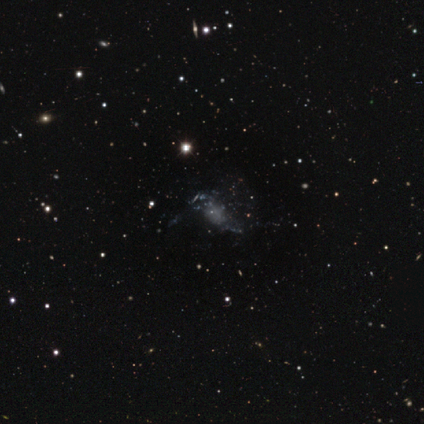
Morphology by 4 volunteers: A featured or disk galaxy (75%) with no bar (100%), no spiral arms (100%) and no central bulge (67%). Merging: major disturbance (100%).